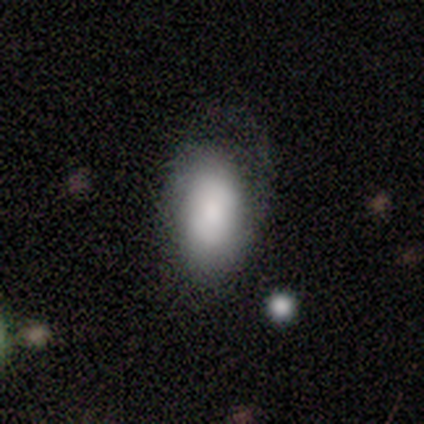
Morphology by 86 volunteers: Smooth or featured: smooth — 73% (featured or disk — 20%)
How rounded: in between — 90% (round — 5%)
Merging: none — 60% (minor disturbance — 21%)